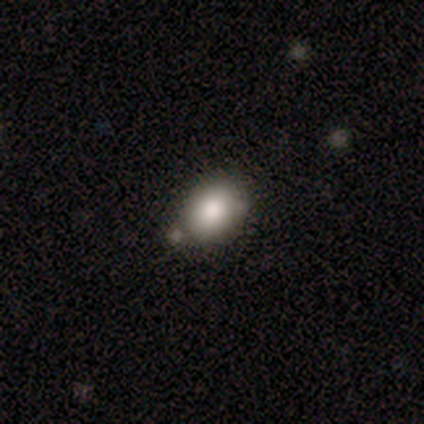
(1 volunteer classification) A smooth galaxy with no disk features (100%) that is round (100%).

Vote fractions:
- Smooth or featured? smooth: 100% / featured or disk: 0% / star or artifact: 0%
- How rounded? round: 100% / in between: 0% / cigar-shaped: 0%
- Merging? none: 100% / minor disturbance: 0% / major disturbance: 0% / merger: 0%